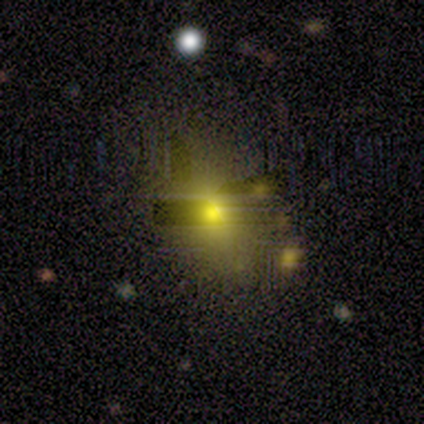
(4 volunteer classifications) This is clearly a smooth galaxy (100%). How rounded: clearly in between (100%). Merging: likely none (75%).